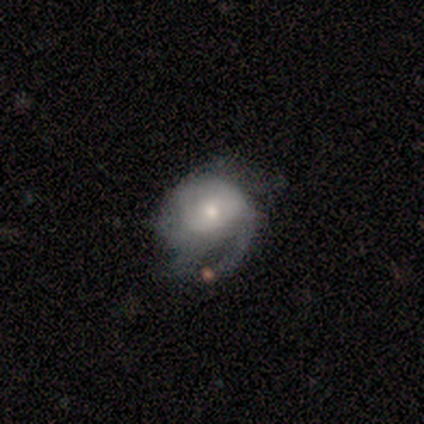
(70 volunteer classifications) Smooth or featured? 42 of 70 (60%) said featured or disk. Edge-on disk? 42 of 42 (100%) said no. Bar? 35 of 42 (83%) said no. Spiral arms? 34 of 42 (81%) said yes. Spiral winding? 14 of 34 (41%) said medium. Spiral arm count? 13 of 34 (38%) said can't tell. Bulge size? 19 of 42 (45%) said moderate. Merging? 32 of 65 (49%) said major disturbance.